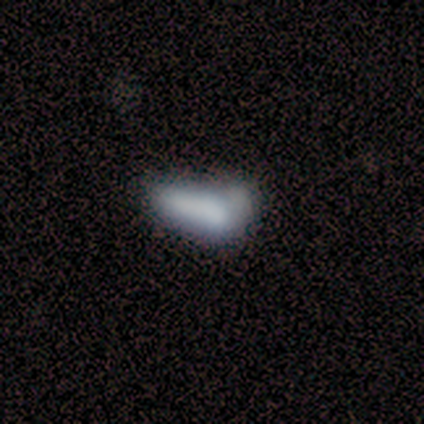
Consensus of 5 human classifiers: Morphology: type=smooth (60%); roundness=cigar-shaped (67%); merging=major disturbance (40%).